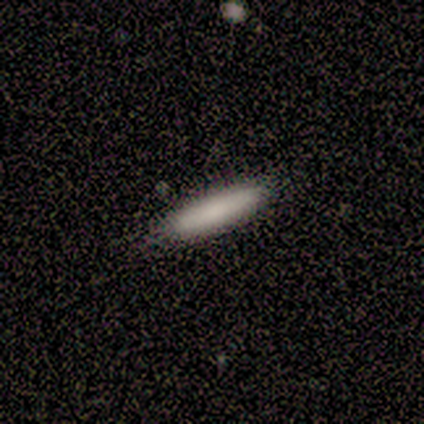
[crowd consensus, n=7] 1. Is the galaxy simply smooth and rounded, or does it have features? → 86% smooth, 14% featured or disk, 0% star or artifact.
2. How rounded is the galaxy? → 100% cigar-shaped, 0% round, 0% in between.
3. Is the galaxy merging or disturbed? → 100% none, 0% minor disturbance, 0% major disturbance, 0% merger.